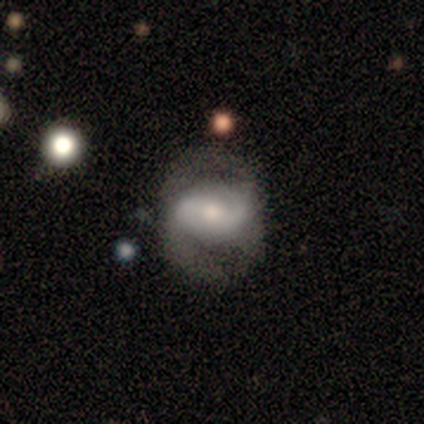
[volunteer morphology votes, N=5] This appears to be a featured or disk galaxy (100%) with a weak bar (40%, tied with no), 2 (80%) medium (60%) spiral arms (100%) and a large central bulge (40%, tied with small). Merging: none (80%).